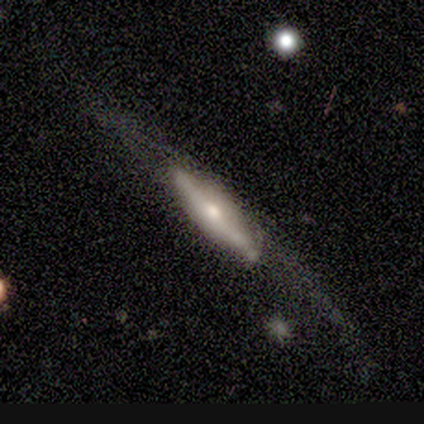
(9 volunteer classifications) smooth_or_featured: smooth (p=0.67) [alt: featured or disk p=0.33]
how_rounded: cigar-shaped (p=0.67) [alt: in between p=0.33]
merging: none (p=0.56) [alt: minor disturbance p=0.22]